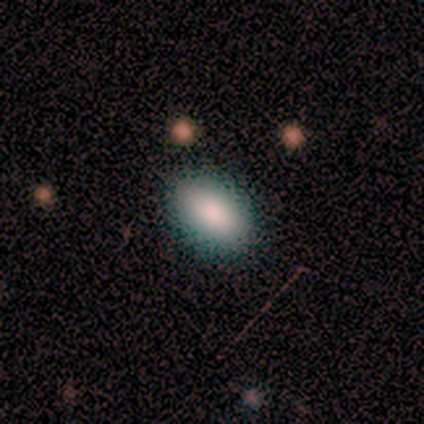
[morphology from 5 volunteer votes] This is clearly a smooth galaxy (100%). How rounded: clearly in between (100%). Merging: clearly none (100%).